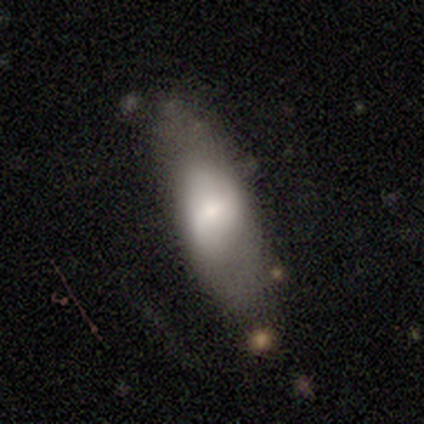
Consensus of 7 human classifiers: This appears to be a featured or disk galaxy (57%) viewed edge-on (50%, tied with no) with no central bulge (100%). Merging: none (86%).